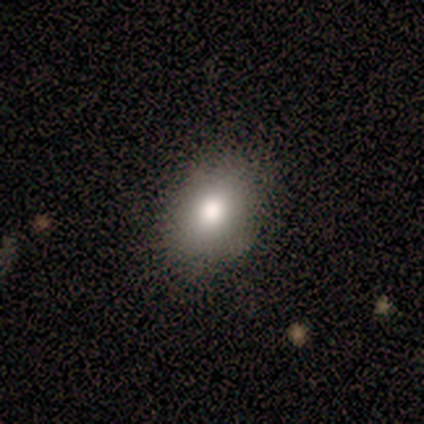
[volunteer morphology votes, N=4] Smooth or featured?
  - smooth: 50% * (tied)
  - featured or disk: 50% * (tied)
  - star or artifact: 0%
How rounded?
  - in between: 100% *
  - round: 0%
  - cigar-shaped: 0%
Merging?
  - none: 75% *
  - minor disturbance: 25%
  - major disturbance: 0%
  - merger: 0%